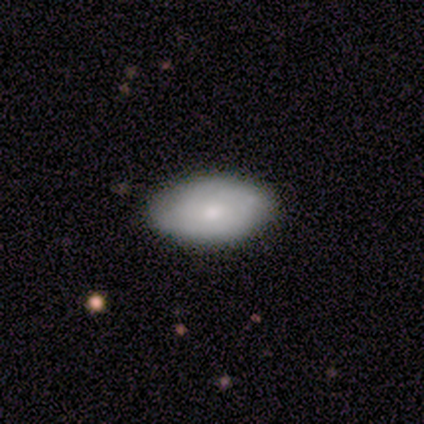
smooth-or-featured: smooth: 100% | featured or disk: 0% | star or artifact: 0%
  how-rounded: in between: 100% | round: 0% | cigar-shaped: 0%
  merging: none: 60% | minor disturbance: 40% | major disturbance: 0% | merger: 0%